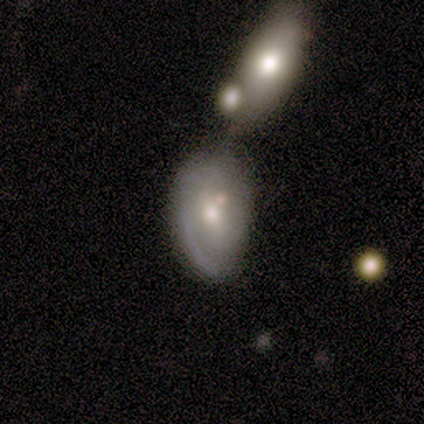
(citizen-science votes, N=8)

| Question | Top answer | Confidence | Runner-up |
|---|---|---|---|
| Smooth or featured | featured or disk | 62% | smooth (25%) |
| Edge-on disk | no | 80% | yes (20%) |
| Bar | weak | 50% | tied: no (50%) |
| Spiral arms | yes | 75% | no (25%) |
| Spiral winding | tight | 33% | tied: medium (33%), loose (33%) |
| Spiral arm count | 1 | 67% | 2 (33%) |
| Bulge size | moderate | 50% | tied: small (50%) |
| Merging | merger | 43% | none (29%) |